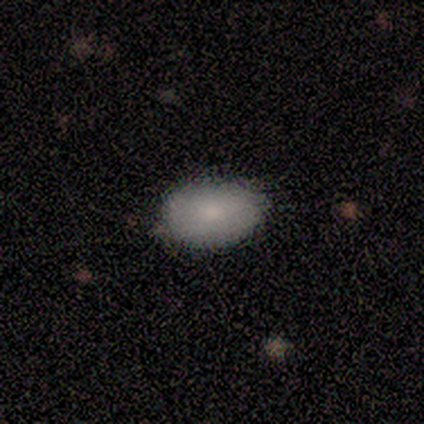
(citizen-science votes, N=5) Volunteers were most divided on "how rounded": in between: 80%, round: 20%, cigar-shaped: 0%. More confident: smooth or featured — smooth (100%); merging — none (80%).